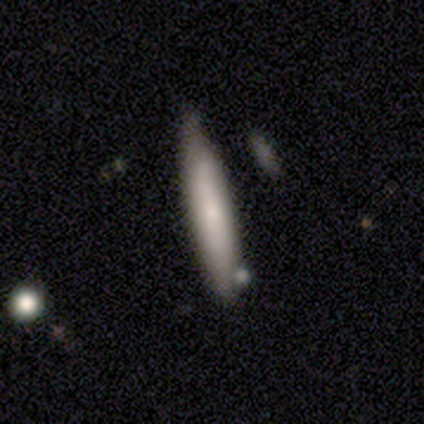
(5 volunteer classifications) A smooth galaxy with no disk features (80%) that is cigar-shaped (100%).

Vote fractions:
- Smooth or featured? smooth: 80% / featured or disk: 20% / star or artifact: 0%
- How rounded? cigar-shaped: 100% / round: 0% / in between: 0%
- Merging? none: 80% / minor disturbance: 20% / major disturbance: 0% / merger: 0%